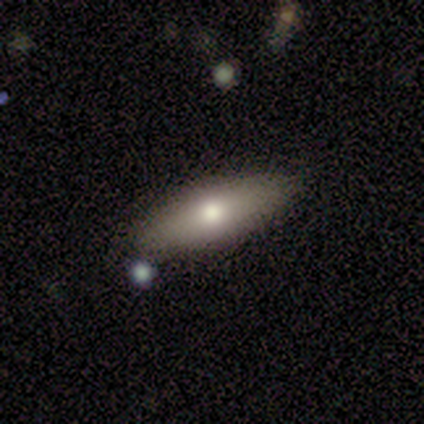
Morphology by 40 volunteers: smooth-or-featured: smooth: 70% | featured or disk: 30% | star or artifact: 0%
  how-rounded: in between: 71% | cigar-shaped: 29% | round: 0%
  merging: none: 78% | minor disturbance: 12% | merger: 8% | major disturbance: 2%